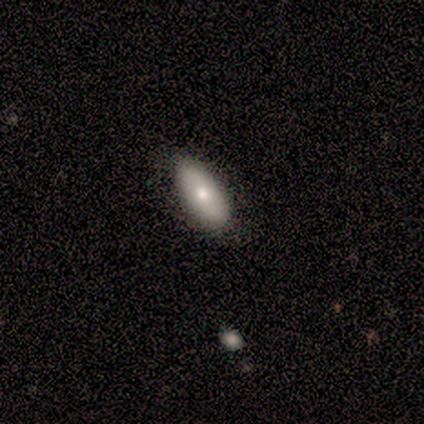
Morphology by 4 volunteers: This is likely a smooth galaxy (75%). How rounded: clearly in between (100%). Merging: likely none (67%).